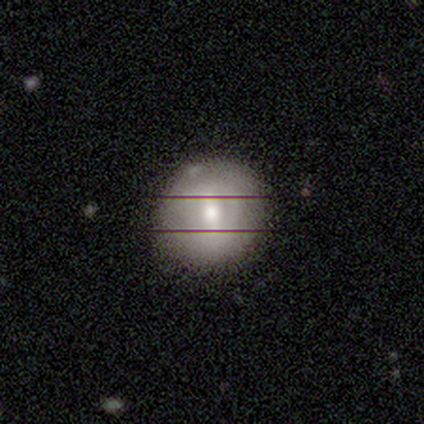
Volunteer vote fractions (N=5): Smooth or featured? 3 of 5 (60%) said smooth. How rounded? 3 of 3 (100%) said round. Merging? 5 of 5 (100%) said none.